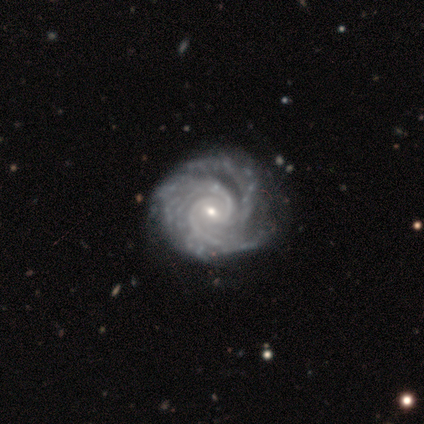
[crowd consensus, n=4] smooth-or-featured: featured or disk: 100% | smooth: 0% | star or artifact: 0%
  disk-edge-on: no: 100% | yes: 0%
    bar: no: 50% | strong: 25% | weak: 25%
    has-spiral-arms: yes: 100% | no: 0%
      spiral-winding: tight: 75% | medium: 25% | loose: 0%
      spiral-arm-count: 2: 25% (tied) | 3: 25% (tied) | 4: 25% (tied) | more than 4: 25% (tied) | 1: 0% | can't tell: 0%
    bulge-size: small: 75% | moderate: 25% | dominant: 0% | large: 0% | none: 0%
  merging: none: 50% (tied) | minor disturbance: 50% (tied) | major disturbance: 0% | merger: 0%